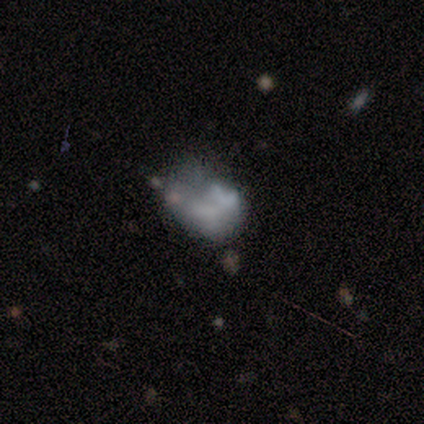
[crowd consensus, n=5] Smooth or featured?
  - smooth: 60% *
  - star or artifact: 40%
  - featured or disk: 0%
How rounded?
  - round: 67% *
  - in between: 33%
  - cigar-shaped: 0%
Merging?
  - merger: 67% *
  - none: 33%
  - minor disturbance: 0%
  - major disturbance: 0%